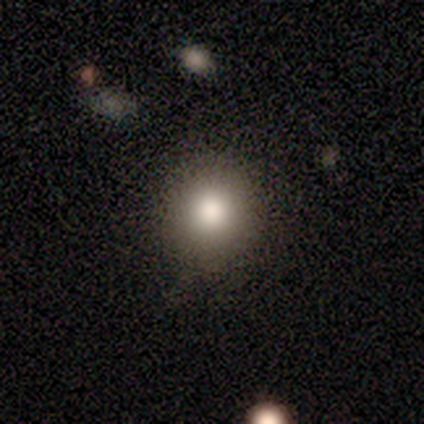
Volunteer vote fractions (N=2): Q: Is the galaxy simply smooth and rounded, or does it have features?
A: smooth — 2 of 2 (100%).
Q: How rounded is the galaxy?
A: round — 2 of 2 (100%).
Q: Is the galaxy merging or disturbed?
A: none — 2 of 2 (100%).